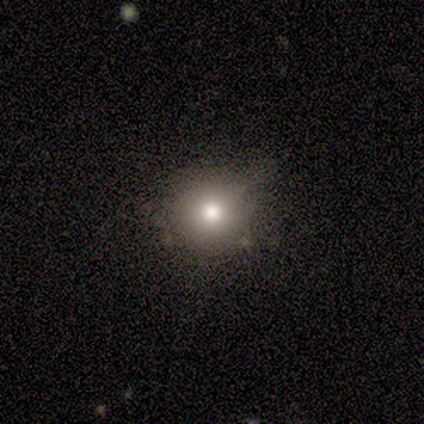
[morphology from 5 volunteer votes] Q: Smooth or featured?
A: smooth (100%)
Q: How rounded?
A: round (100%)
Q: Merging?
A: none (80%); runner-up: minor disturbance (20%)